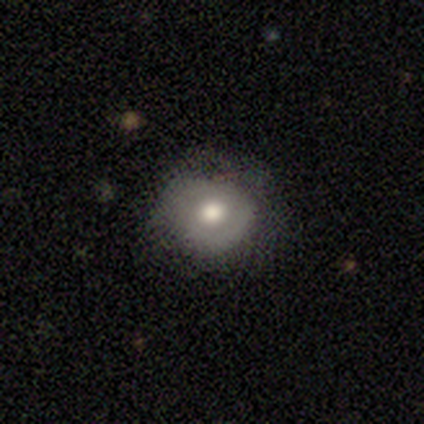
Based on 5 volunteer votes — smooth-or-featured: smooth: 80% | featured or disk: 20% | star or artifact: 0%
  how-rounded: round: 100% | in between: 0% | cigar-shaped: 0%
  merging: none: 60% | minor disturbance: 40% | major disturbance: 0% | merger: 0%